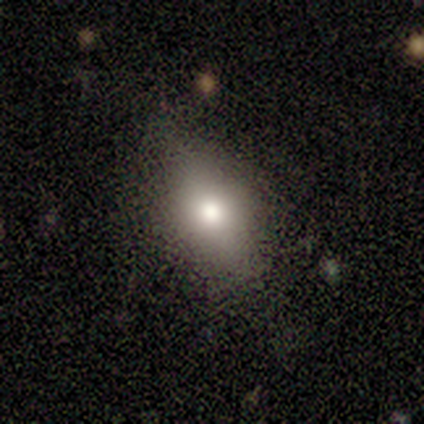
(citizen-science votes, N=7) smooth_or_featured: smooth (p=0.71) [alt: featured or disk p=0.29]
how_rounded: in between (p=0.80) [alt: cigar-shaped p=0.20]
merging: none (p=0.71) [alt: minor disturbance p=0.29]